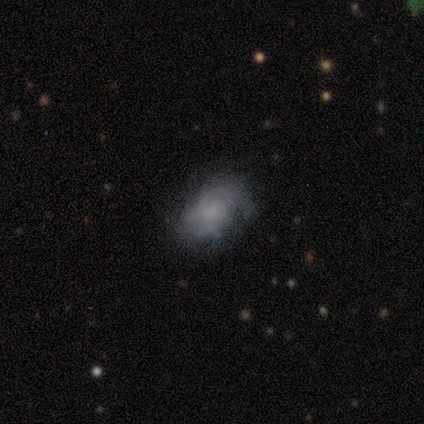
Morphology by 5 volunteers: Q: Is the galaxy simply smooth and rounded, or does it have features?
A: smooth — 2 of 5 (40%, tied with featured or disk).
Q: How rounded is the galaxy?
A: in between — 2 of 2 (100%).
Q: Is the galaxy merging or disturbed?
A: none — 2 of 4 (50%, tied with minor disturbance).